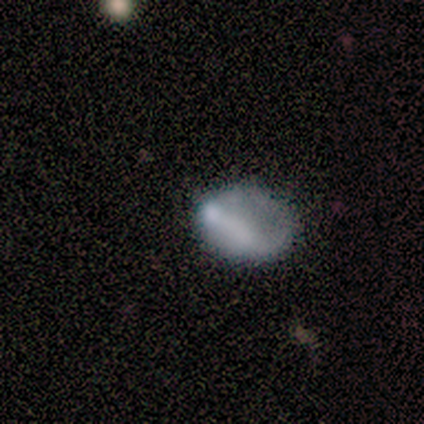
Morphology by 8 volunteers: Smooth or featured?
  - smooth: 62% *
  - featured or disk: 25%
  - star or artifact: 12%
How rounded?
  - in between: 80% *
  - round: 20%
  - cigar-shaped: 0%
Merging?
  - none: 57% *
  - minor disturbance: 29%
  - major disturbance: 14%
  - merger: 0%